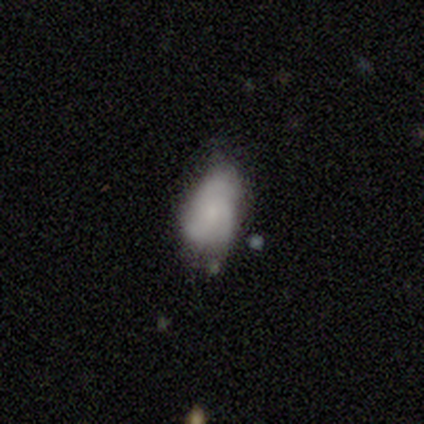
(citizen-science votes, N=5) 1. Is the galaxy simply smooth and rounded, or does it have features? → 80% featured or disk, 20% smooth, 0% star or artifact.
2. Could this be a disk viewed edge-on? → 75% no, 25% yes.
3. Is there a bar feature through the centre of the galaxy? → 100% no, 0% strong, 0% weak.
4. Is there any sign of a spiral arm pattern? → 67% yes, 33% no.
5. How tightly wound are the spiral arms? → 100% loose, 0% tight, 0% medium.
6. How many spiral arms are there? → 50% 3 (tied), 50% can't tell (tied), 0% 1, 0% 2, 0% 4, 0% more than 4.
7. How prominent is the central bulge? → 33% moderate (tied), 33% small (tied), 33% none (tied), 0% dominant, 0% large.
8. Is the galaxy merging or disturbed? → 80% none, 20% minor disturbance, 0% major disturbance, 0% merger.